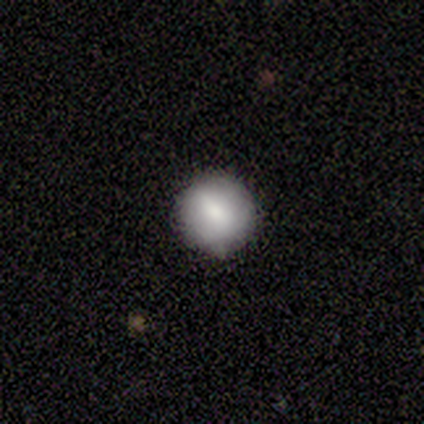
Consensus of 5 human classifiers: Smooth or featured? 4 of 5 (80%) said smooth. How rounded? 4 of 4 (100%) said round. Merging? 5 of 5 (100%) said none.